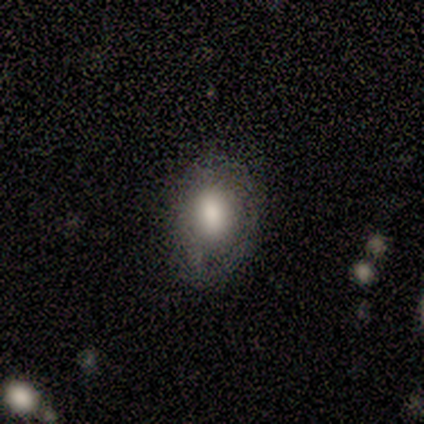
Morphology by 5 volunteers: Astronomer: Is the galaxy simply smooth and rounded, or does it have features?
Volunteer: smooth — 80%.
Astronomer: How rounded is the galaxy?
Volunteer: in between — 100%.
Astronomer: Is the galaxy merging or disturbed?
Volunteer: none — 100%.